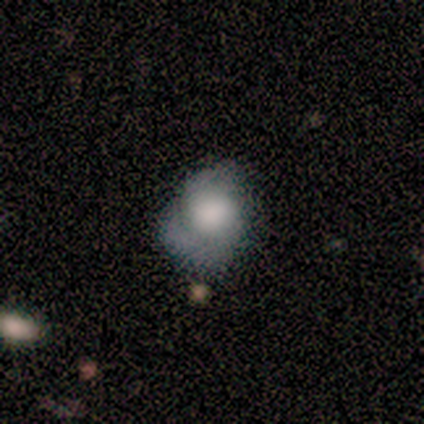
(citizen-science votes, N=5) Morphology: type=smooth (60%); roundness=round (67%); merging=major disturbance (60%).